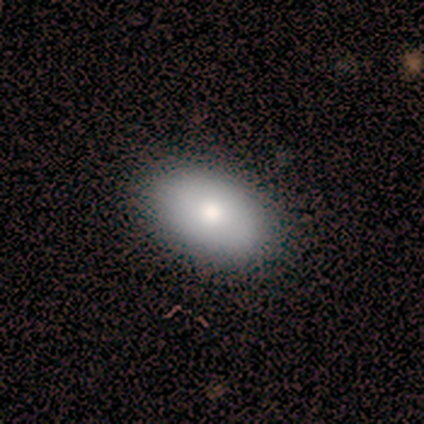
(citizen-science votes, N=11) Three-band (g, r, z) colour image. It shows a smooth galaxy with no disk features (64%) that is in between round and cigar-shaped (86%). Merging: none (91%).